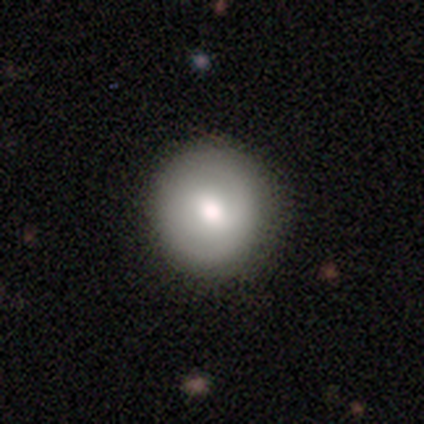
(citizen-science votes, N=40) This appears to be a smooth galaxy with no disk features (65%) that is round (96%). Merging: none (73%).